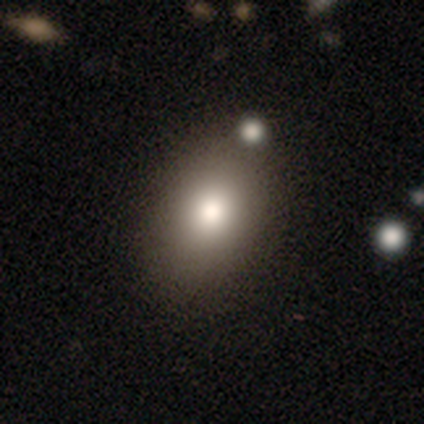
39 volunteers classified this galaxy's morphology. type=smooth (77%); roundness=in between (80%); merging=none (83%).